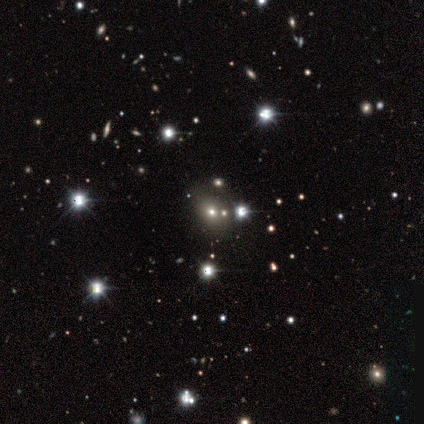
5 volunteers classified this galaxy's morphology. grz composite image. It shows a star or artifact, not a galaxy (80%).